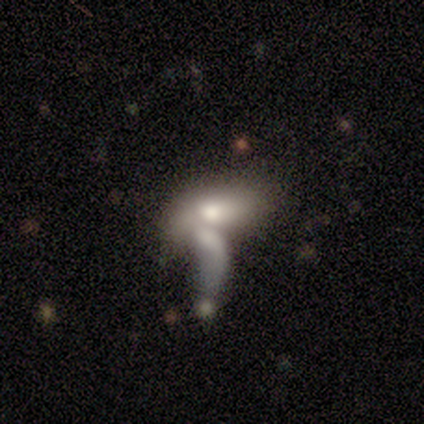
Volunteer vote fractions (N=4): Overall: smooth (50%, tied with featured or disk). How rounded: in between (100%). Merging: merger (75%).